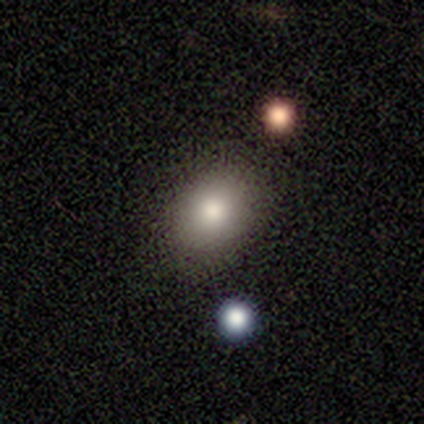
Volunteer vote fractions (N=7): Q: Smooth or featured?
A: smooth (100%)
Q: How rounded?
A: in between (57%); runner-up: round (43%)
Q: Merging?
A: none (100%)